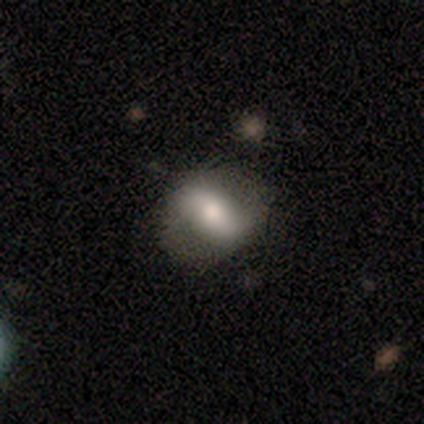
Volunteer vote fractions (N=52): Smooth or featured? 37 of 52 (71%) said smooth. How rounded? 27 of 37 (73%) said in between. Merging? 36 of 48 (75%) said none.